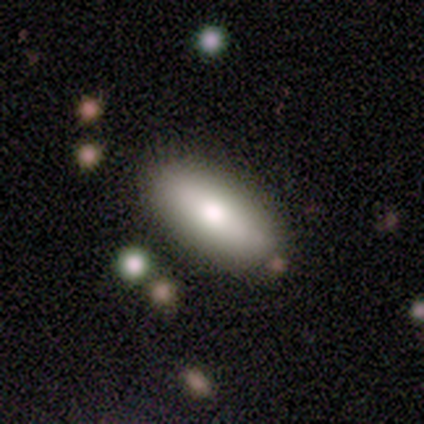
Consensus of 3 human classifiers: Smooth or featured?
  - smooth: 100% *
  - featured or disk: 0%
  - star or artifact: 0%
How rounded?
  - in between: 100% *
  - round: 0%
  - cigar-shaped: 0%
Merging?
  - none: 67% *
  - minor disturbance: 33%
  - major disturbance: 0%
  - merger: 0%